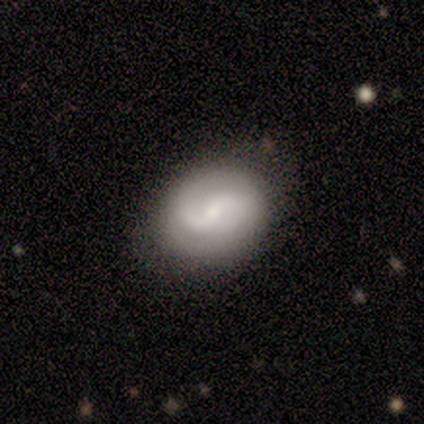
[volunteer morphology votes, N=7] Smooth or featured?
  - featured or disk: 100% *
  - smooth: 0%
  - star or artifact: 0%
Edge-on disk?
  - no: 100% *
  - yes: 0%
Bar?
  - weak: 43% *
  - strong: 29%
  - no: 29%
Spiral arms?
  - yes: 100% *
  - no: 0%
Spiral winding?
  - tight: 43% * (tied)
  - medium: 43% * (tied)
  - loose: 14%
Spiral arm count?
  - 2: 86% *
  - can't tell: 14%
  - 1: 0%
  - 3: 0%
  - 4: 0%
  - more than 4: 0%
Bulge size?
  - small: 86% *
  - dominant: 14%
  - large: 0%
  - moderate: 0%
  - none: 0%
Merging?
  - none: 100% *
  - minor disturbance: 0%
  - major disturbance: 0%
  - merger: 0%